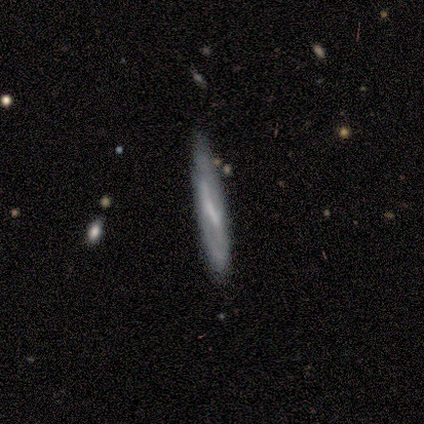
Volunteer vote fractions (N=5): Smooth or featured: featured or disk — 60% (smooth — 40%)
Edge-on disk: yes — 67% (no — 33%)
Edge-on bulge: none — 100%
Merging: none — 80% (minor disturbance — 20%)